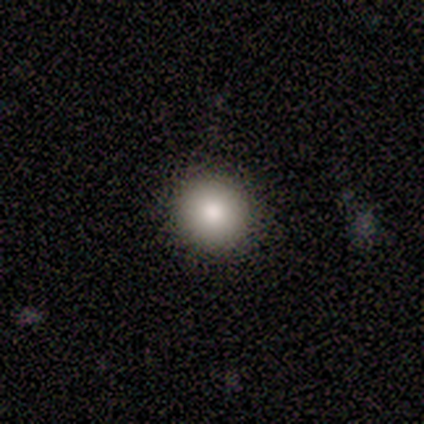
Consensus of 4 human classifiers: This is clearly a smooth galaxy (100%). How rounded: clearly round (100%). Merging: clearly none (100%).